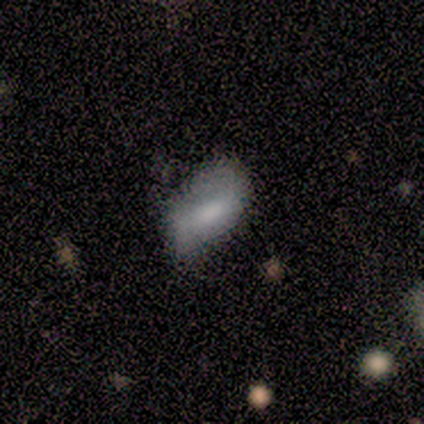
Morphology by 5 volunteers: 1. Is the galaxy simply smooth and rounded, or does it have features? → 80% smooth, 20% star or artifact, 0% featured or disk.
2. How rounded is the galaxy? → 75% in between, 25% cigar-shaped, 0% round.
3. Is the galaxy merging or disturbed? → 50% major disturbance, 25% none, 25% minor disturbance, 0% merger.